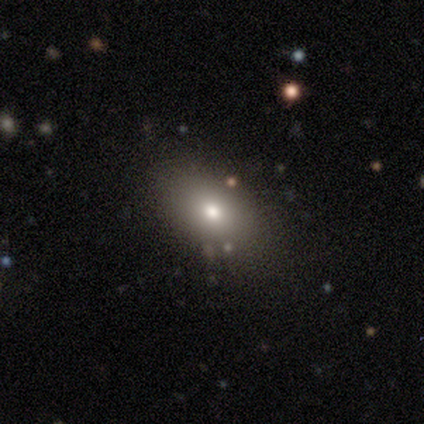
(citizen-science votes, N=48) smooth 65%, featured or disk 19%, star or artifact 17%. Down the decision tree: how rounded — in between (94%); merging — none (88%).